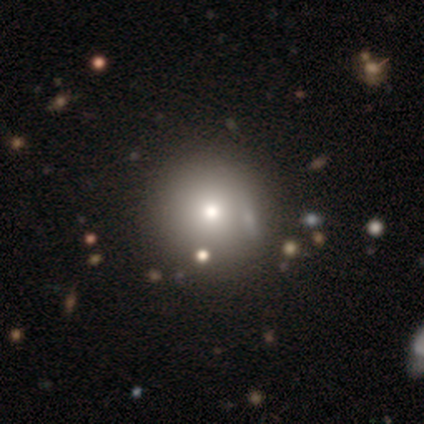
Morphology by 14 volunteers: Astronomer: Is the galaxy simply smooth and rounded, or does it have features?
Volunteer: smooth — 57%.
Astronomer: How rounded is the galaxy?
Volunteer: round — 100%.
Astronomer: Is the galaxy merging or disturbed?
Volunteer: none — 100%.